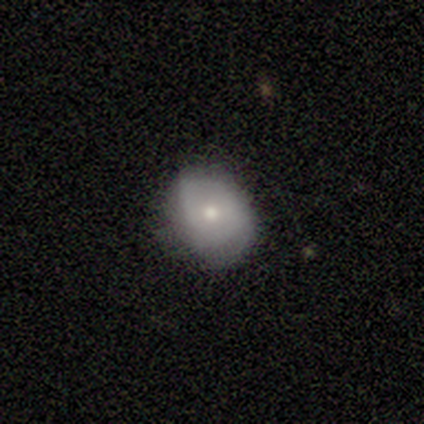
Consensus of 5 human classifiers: Overall: smooth (60%; featured or disk 20%). How rounded: in between (100%). Merging: none (50%, tied with minor disturbance).